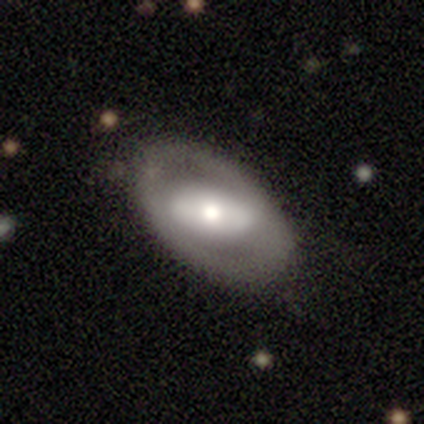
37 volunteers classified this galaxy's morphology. featured or disk 73%, smooth 27%, star or artifact 0%. Down the decision tree: edge-on disk — no (93%); bar — no (52%); spiral arms — no (84%); bulge size — moderate (64%); merging — none (84%).